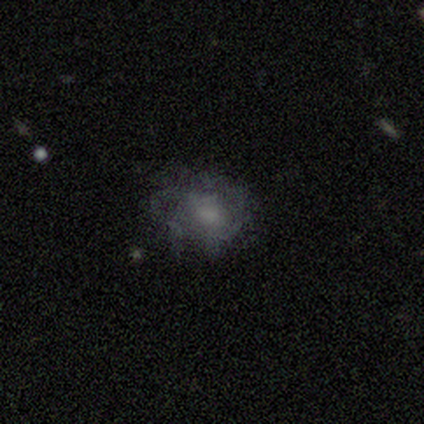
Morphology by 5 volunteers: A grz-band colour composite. It shows a smooth galaxy with no disk features (40%, tied with featured or disk) that is round (50%, tied with in between). Merging: minor disturbance (50%).